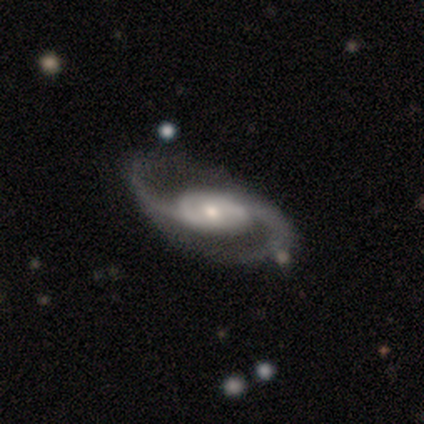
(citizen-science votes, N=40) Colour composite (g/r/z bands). It shows a featured or disk galaxy (98%) with no bar (43%), 2 (97%) loose (64%) spiral arms (97%) and a small central bulge (65%). Merging: none (77%).